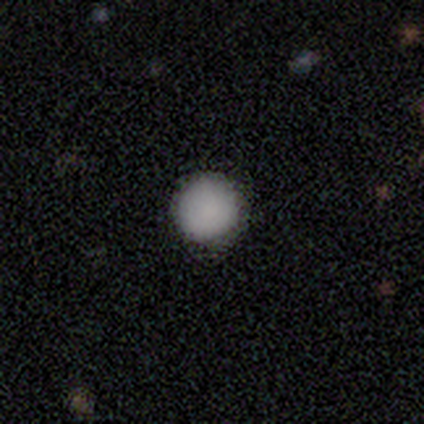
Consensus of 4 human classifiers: This appears to be a smooth galaxy with no disk features (100%) that is round (100%). Merging: none (75%).